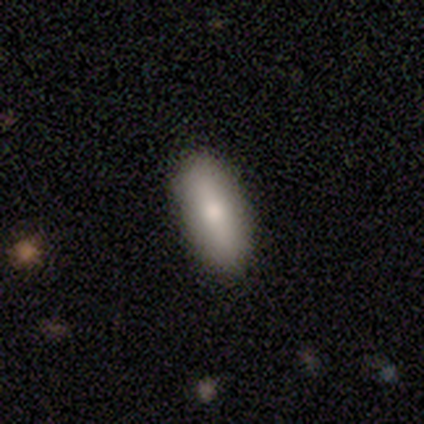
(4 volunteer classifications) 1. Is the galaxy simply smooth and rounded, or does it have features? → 100% smooth, 0% featured or disk, 0% star or artifact.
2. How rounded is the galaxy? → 75% in between, 25% cigar-shaped, 0% round.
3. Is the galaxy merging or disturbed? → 100% none, 0% minor disturbance, 0% major disturbance, 0% merger.